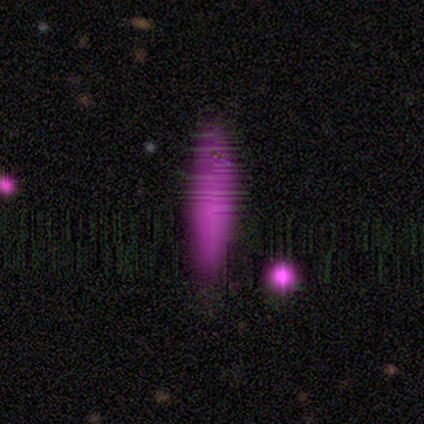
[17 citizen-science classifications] Q: Smooth or featured?
A: smooth (59%); runner-up: star or artifact (35%)
Q: How rounded?
A: cigar-shaped (90%); runner-up: in between (10%)
Q: Merging?
A: none (73%); runner-up: minor disturbance (18%)